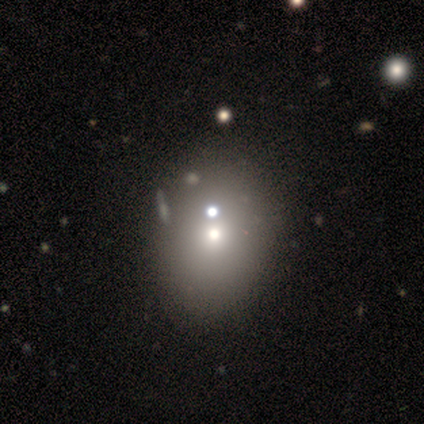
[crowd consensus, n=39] This is likely a smooth galaxy (64%). How rounded: likely in between (72%). Merging: possibly none (59%).